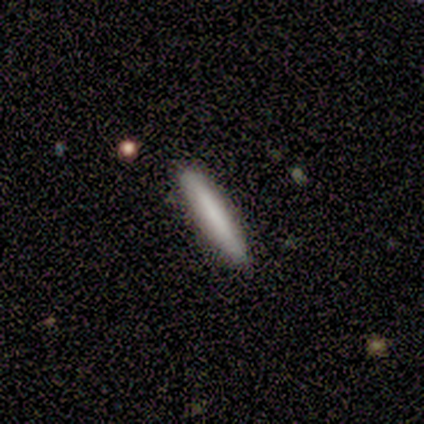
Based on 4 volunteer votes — A smooth galaxy with no disk features (75%) that is cigar-shaped (100%).

Vote fractions:
- Smooth or featured? smooth: 75% / featured or disk: 25% / star or artifact: 0%
- How rounded? cigar-shaped: 100% / round: 0% / in between: 0%
- Merging? none: 100% / minor disturbance: 0% / major disturbance: 0% / merger: 0%